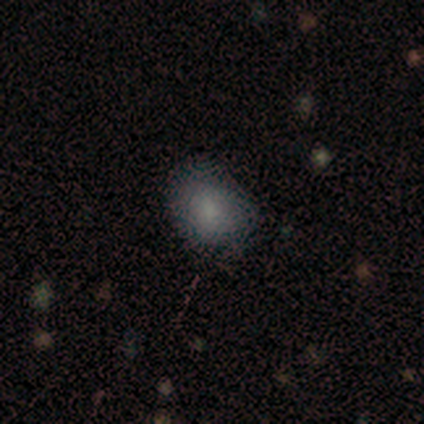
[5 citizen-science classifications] Volunteers were most divided on "how rounded" (2-way tie): round: 50%, in between: 50%, cigar-shaped: 0%. More confident: merging — none (100%); smooth or featured — smooth (80%).